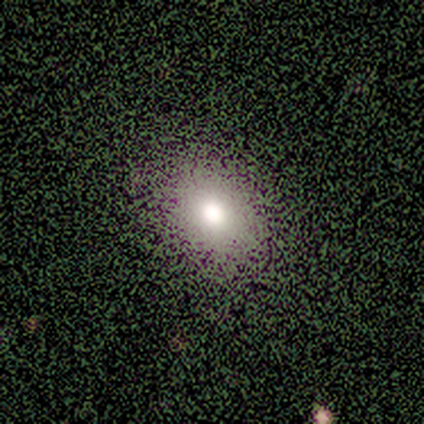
Volunteers were most divided on "how rounded": in between: 67%, round: 33%, cigar-shaped: 0%. More confident: merging — none (100%); smooth or featured — smooth (60%).